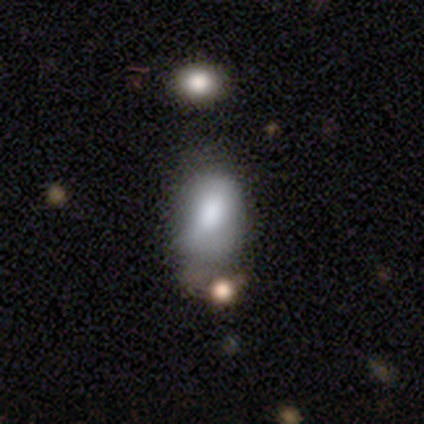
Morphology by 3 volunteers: Smooth or featured: smooth — 67% (featured or disk — 33%)
How rounded: in between — 100%
Merging: minor disturbance — 67% (major disturbance — 33%)